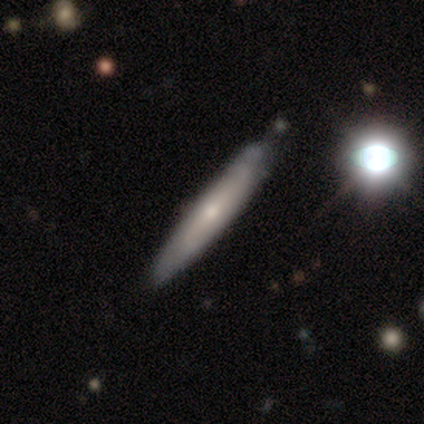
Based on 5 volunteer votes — Q: Smooth or featured?
A: smooth (80%); runner-up: featured or disk (20%)
Q: How rounded?
A: cigar-shaped (100%)
Q: Merging?
A: none (100%)